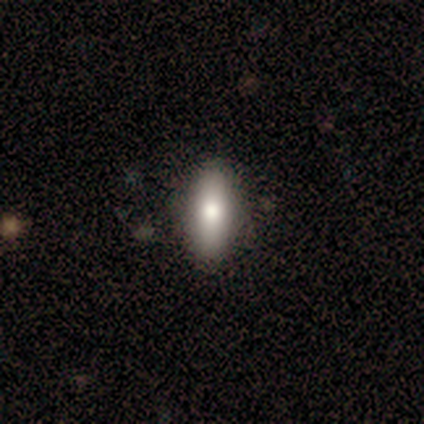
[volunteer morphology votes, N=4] A smooth galaxy with no disk features (100%) that is in between round and cigar-shaped (100%).

Vote fractions:
- Smooth or featured? smooth: 100% / featured or disk: 0% / star or artifact: 0%
- How rounded? in between: 100% / round: 0% / cigar-shaped: 0%
- Merging? none: 100% / minor disturbance: 0% / major disturbance: 0% / merger: 0%